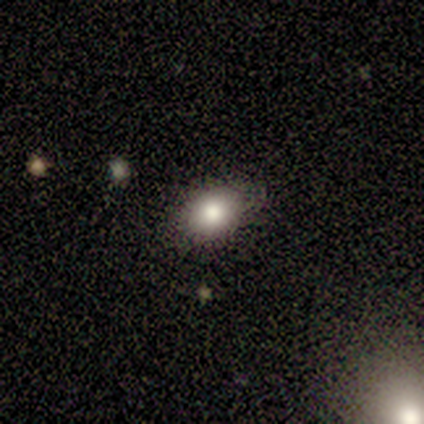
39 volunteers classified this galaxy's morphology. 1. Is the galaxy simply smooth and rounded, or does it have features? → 85% smooth, 10% star or artifact, 5% featured or disk.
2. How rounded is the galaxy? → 64% in between, 33% round, 3% cigar-shaped.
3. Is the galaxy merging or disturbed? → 89% none, 9% minor disturbance, 3% major disturbance, 0% merger.